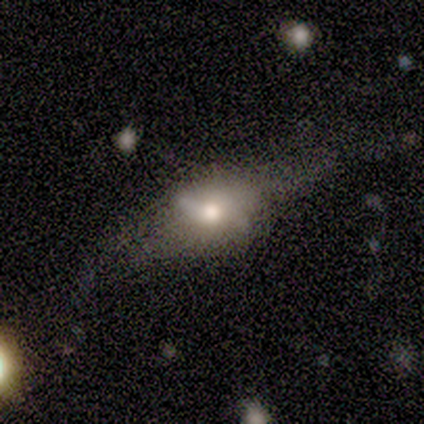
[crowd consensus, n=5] Overall: featured or disk (100%). Edge-on disk: no (60%; yes 40%). Bar: strong (33%, tied with weak and no). Spiral arms: no (100%). Bulge size: large (33%, tied with moderate and small). Merging: none (40%, tied with minor disturbance).